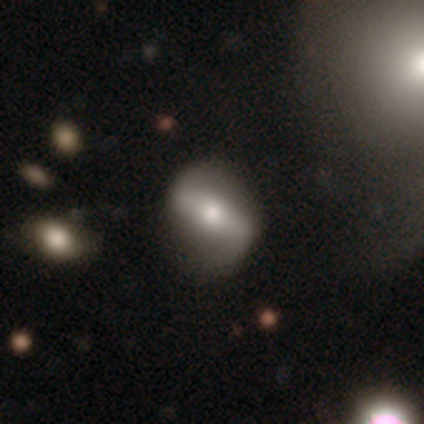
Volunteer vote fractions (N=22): Smooth or featured: featured or disk — 73% (star or artifact — 23%)
Edge-on disk: no — 94% (yes — 6%)
Bar: strong — 67% (weak — 27%)
Spiral arms: yes — 60% (no — 40%)
Spiral winding: loose — 56% (medium — 33%)
Spiral arm count: 2 — 100%
Bulge size: large — 40% (moderate — 33%)
Merging: none — 76% (minor disturbance — 24%)